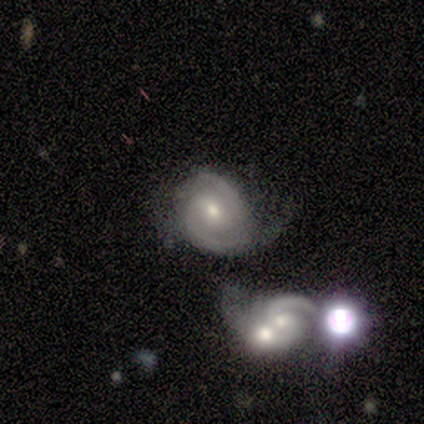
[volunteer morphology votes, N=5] A featured or disk galaxy (80%) with no bar (67%), 2 (100%) medium (67%) spiral arms (100%) and a moderate central bulge (67%).

Vote fractions:
- Smooth or featured? featured or disk: 80% / smooth: 20% / star or artifact: 0%
- Edge-on disk? no: 75% / yes: 25%
- Bar? no: 67% / weak: 33% / strong: 0%
- Spiral arms? yes: 100% / no: 0%
- Spiral winding? medium: 67% / tight: 33% / loose: 0%
- Spiral arm count? 2: 100% / 1: 0% / 3: 0% / 4: 0% / more than 4: 0% / can't tell: 0%
- Bulge size? moderate: 67% / small: 33% / dominant: 0% / large: 0% / none: 0%
- Merging? none: 40% (tied) / minor disturbance: 40% (tied) / major disturbance: 20% / merger: 0%